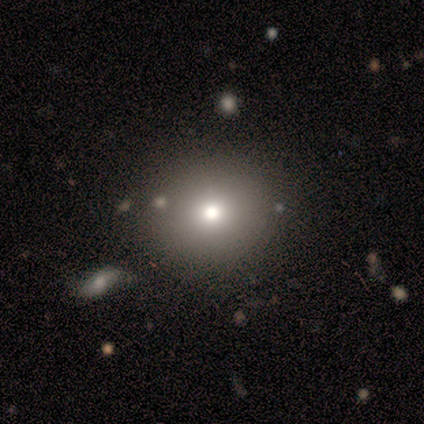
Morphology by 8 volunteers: Smooth or featured: smooth — 62% (featured or disk — 38%)
How rounded: round — 100%
Merging: none — 88% (minor disturbance — 12%)